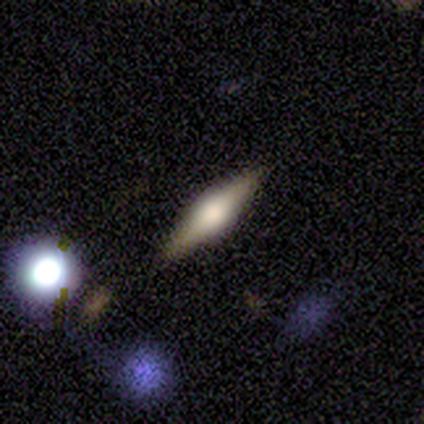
Volunteers were most divided on "edge-on bulge" (2-way tie): boxy: 50%, rounded: 50%, none: 0%. More confident: edge-on disk — yes (100%); smooth or featured — featured or disk (80%); merging — none (80%).